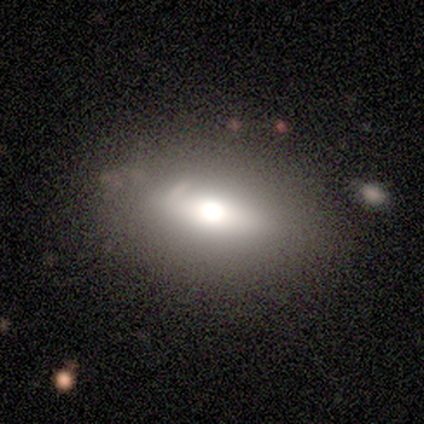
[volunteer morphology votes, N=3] A featured or disk galaxy (67%) with a weak bar (100%), no spiral arms (100%) and a dominant central bulge (50%, tied with large). Merging: none (67%).